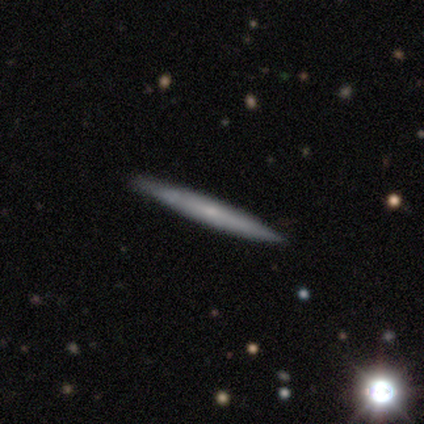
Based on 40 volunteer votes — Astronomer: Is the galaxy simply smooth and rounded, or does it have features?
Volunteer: featured or disk — 52% (runner-up: smooth, 48%).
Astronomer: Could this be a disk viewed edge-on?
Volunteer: yes — 95%.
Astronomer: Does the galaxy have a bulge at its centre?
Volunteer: none — 80%.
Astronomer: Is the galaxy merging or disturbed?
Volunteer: none — 82%.